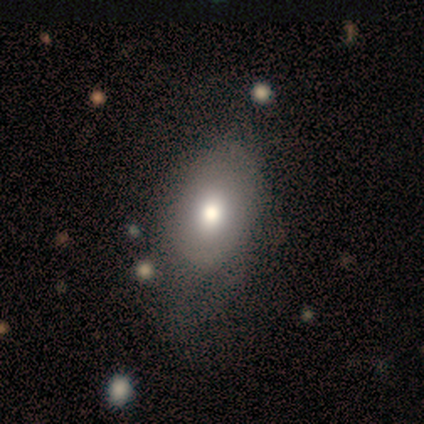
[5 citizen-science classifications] smooth 80%, featured or disk 20%, star or artifact 0%. Down the decision tree: how rounded — in between (100%); merging — none (80%).